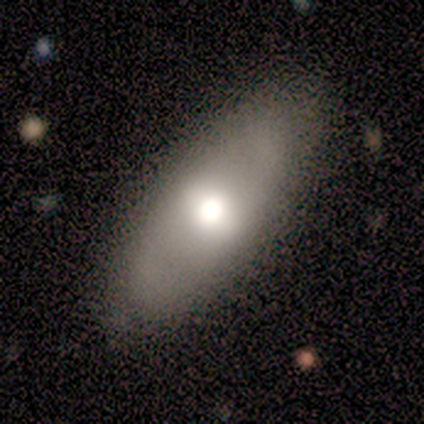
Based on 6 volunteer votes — Smooth or featured?
  - smooth: 83% *
  - featured or disk: 17%
  - star or artifact: 0%
How rounded?
  - in between: 100% *
  - round: 0%
  - cigar-shaped: 0%
Merging?
  - none: 100% *
  - minor disturbance: 0%
  - major disturbance: 0%
  - merger: 0%